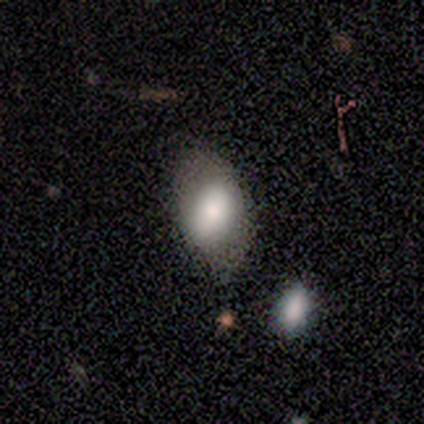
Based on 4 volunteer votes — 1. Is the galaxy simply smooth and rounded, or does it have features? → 100% smooth, 0% featured or disk, 0% star or artifact.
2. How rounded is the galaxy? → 100% in between, 0% round, 0% cigar-shaped.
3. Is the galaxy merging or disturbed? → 75% none, 25% merger, 0% minor disturbance, 0% major disturbance.